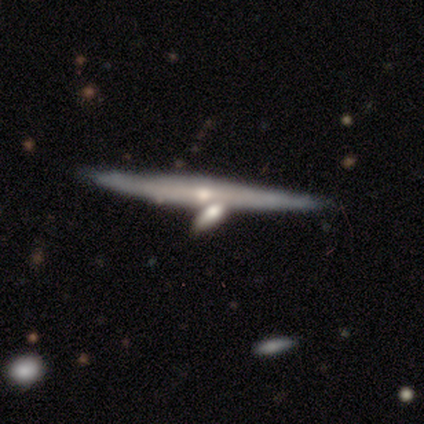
Smooth or featured? 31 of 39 (79%) said featured or disk. Edge-on disk? 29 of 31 (94%) said yes. Edge-on bulge? 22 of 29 (76%) said rounded. Merging? 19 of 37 (51%) said none.